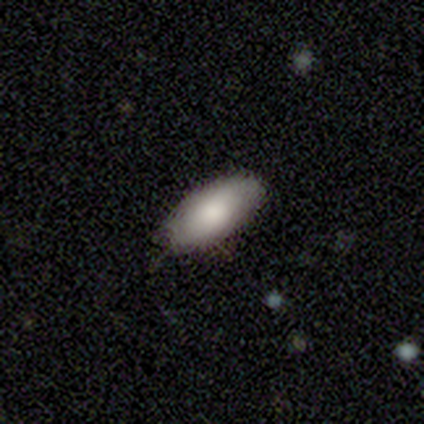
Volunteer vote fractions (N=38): smooth 68%, featured or disk 29%, star or artifact 3%. Down the decision tree: how rounded — in between (88%); merging — none (81%).